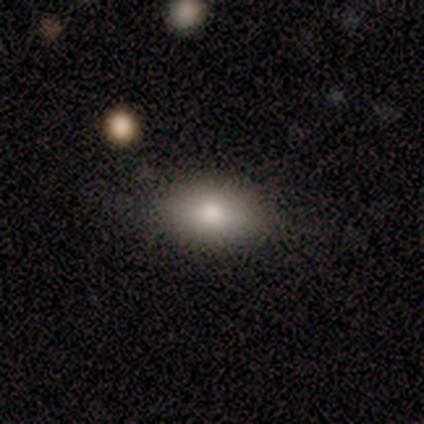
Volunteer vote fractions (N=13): Morphology: type=smooth (100%); roundness=in between (100%); merging=none (92%).